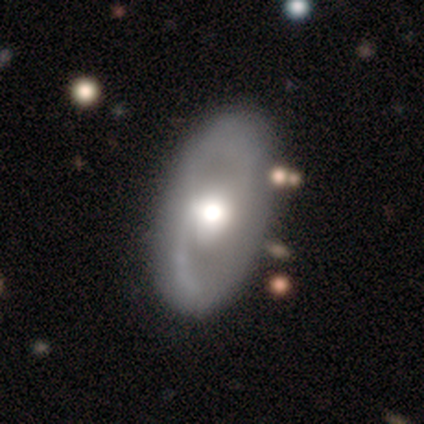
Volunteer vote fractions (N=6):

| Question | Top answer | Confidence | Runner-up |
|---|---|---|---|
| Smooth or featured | smooth | 50% | featured or disk (33%) |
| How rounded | in between | 100% | — |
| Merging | none | 60% | minor disturbance (40%) |